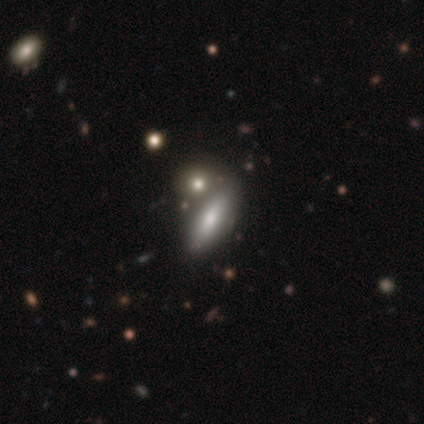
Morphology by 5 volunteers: This appears to be a smooth galaxy with no disk features (80%) that is cigar-shaped (75%). Merging: none (75%).